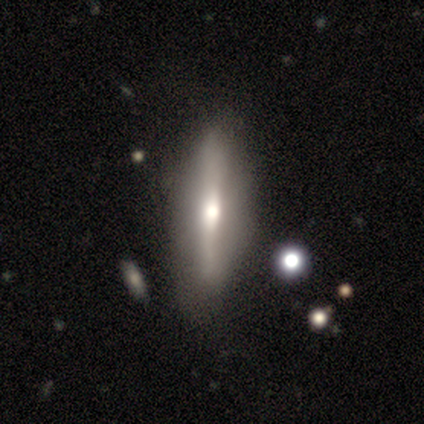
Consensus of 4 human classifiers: featured or disk 75%, smooth 25%, star or artifact 0%. Down the decision tree: edge-on disk — yes (100%); edge-on bulge — rounded (100%); merging — none (100%).